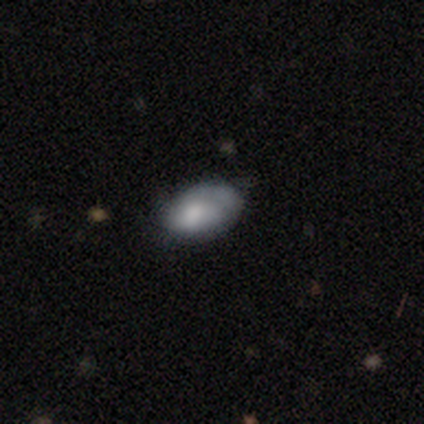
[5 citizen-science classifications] Morphology: type=smooth (80%); roundness=in between (100%); merging=none (50%, tied with minor disturbance).